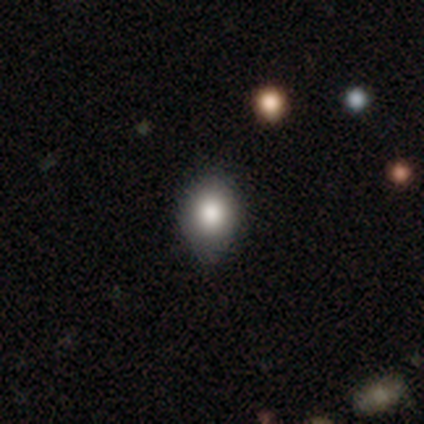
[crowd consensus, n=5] Volunteers were most divided on "how rounded": round: 80%, in between: 20%, cigar-shaped: 0%. More confident: smooth or featured — smooth (100%); merging — none (100%).